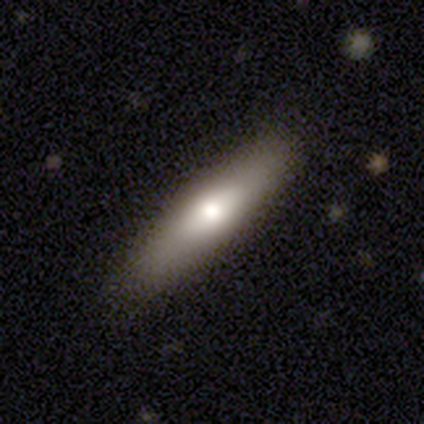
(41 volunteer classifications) smooth-or-featured: smooth: 54% | featured or disk: 34% | star or artifact: 12%
  how-rounded: cigar-shaped: 86% | in between: 14% | round: 0%
  merging: none: 81% | minor disturbance: 11% | merger: 6% | major disturbance: 3%